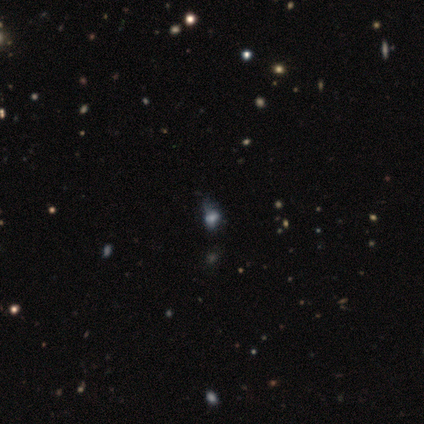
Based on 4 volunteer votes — smooth-or-featured: star or artifact: 50% | smooth: 25% | featured or disk: 25%